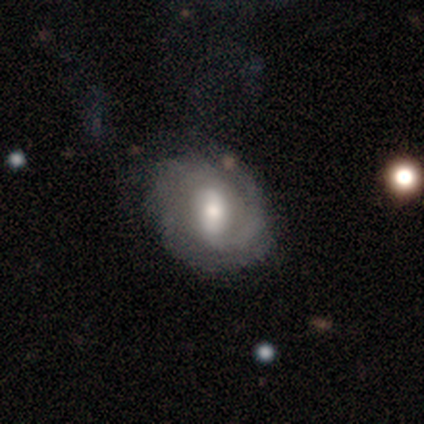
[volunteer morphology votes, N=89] A featured or disk galaxy (79%) with a weak bar (39%), tight (61%) spiral arms (89%) and a moderate central bulge (61%).

Vote fractions:
- Smooth or featured? featured or disk: 79% / smooth: 17% / star or artifact: 4%
- Edge-on disk? no: 94% / yes: 6%
- Bar? weak: 39% / no: 33% / strong: 27%
- Spiral arms? yes: 89% / no: 11%
- Spiral winding? tight: 61% / medium: 24% / loose: 15%
- Spiral arm count? can't tell: 51% / 2: 25% / 3: 8% / 1: 7% / 4: 5% / more than 4: 3%
- Bulge size? moderate: 61% / small: 20% / large: 17% / dominant: 3% / none: 0%
- Merging? none: 62% / minor disturbance: 26% / major disturbance: 11% / merger: 1%